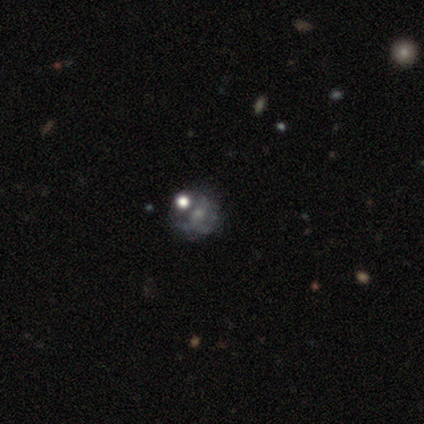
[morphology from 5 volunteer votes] Overall: smooth (60%; featured or disk 20%). How rounded: round (67%; in between 33%). Merging: none (25%, tied with minor disturbance, major disturbance and merger).